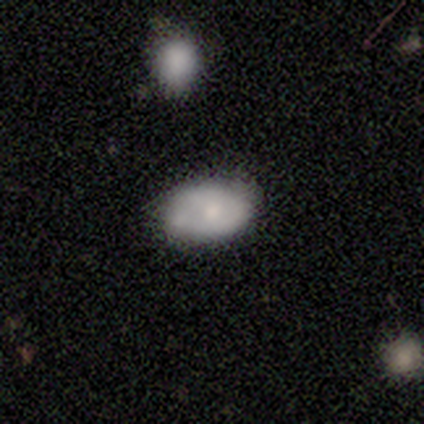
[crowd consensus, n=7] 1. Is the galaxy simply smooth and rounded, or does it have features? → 71% smooth, 14% featured or disk, 14% star or artifact.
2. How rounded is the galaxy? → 100% in between, 0% round, 0% cigar-shaped.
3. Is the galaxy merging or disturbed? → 83% none, 17% minor disturbance, 0% major disturbance, 0% merger.